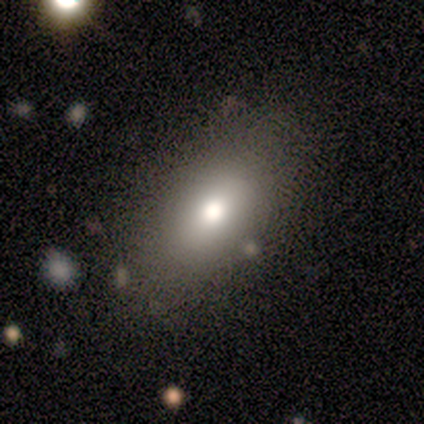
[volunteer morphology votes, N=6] smooth 100%, featured or disk 0%, star or artifact 0%. Down the decision tree: how rounded — in between (83%); merging — none (100%).